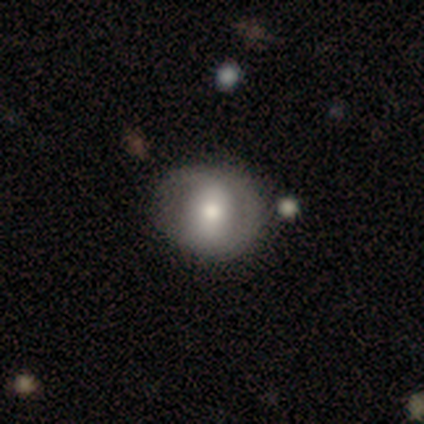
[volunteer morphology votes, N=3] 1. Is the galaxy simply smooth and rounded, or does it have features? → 67% smooth, 33% featured or disk, 0% star or artifact.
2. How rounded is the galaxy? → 50% round (tied), 50% in between (tied), 0% cigar-shaped.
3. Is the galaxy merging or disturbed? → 67% none, 33% minor disturbance, 0% major disturbance, 0% merger.